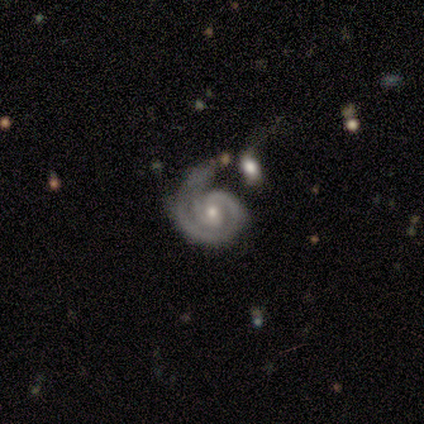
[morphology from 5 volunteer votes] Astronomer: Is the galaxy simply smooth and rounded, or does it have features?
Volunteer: featured or disk — 80%.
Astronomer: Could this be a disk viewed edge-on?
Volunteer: no — 100%.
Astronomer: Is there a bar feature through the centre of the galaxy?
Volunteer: no — 75%.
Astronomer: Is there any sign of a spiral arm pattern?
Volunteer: yes — 100%.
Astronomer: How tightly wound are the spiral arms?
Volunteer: tight — 50%, tied with medium at 50%.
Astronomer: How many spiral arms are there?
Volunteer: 1 — 50%, tied with 2 at 50%.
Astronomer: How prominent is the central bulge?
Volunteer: moderate — 100%.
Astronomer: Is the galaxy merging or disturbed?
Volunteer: none — 50%.